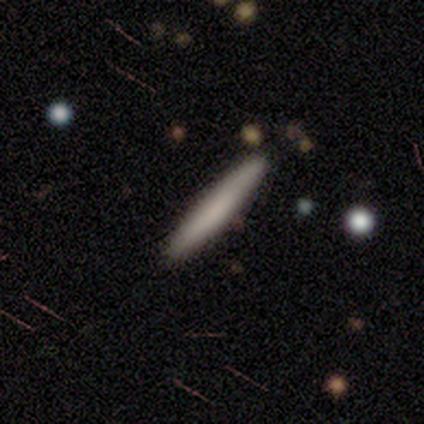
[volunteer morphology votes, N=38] smooth 74%, featured or disk 24%, star or artifact 3%. Down the decision tree: how rounded — cigar-shaped (96%); merging — none (54%).